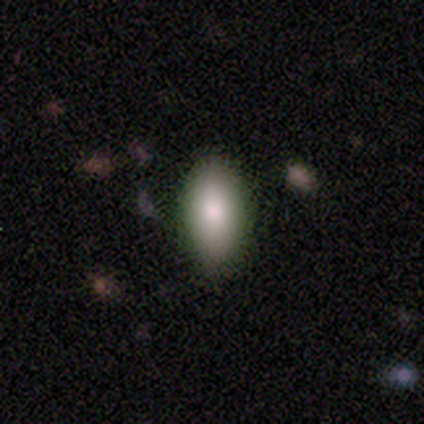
smooth-or-featured: smooth: 60% | featured or disk: 20% | star or artifact: 20%
  how-rounded: in between: 100% | round: 0% | cigar-shaped: 0%
  merging: none: 75% | minor disturbance: 25% | major disturbance: 0% | merger: 0%